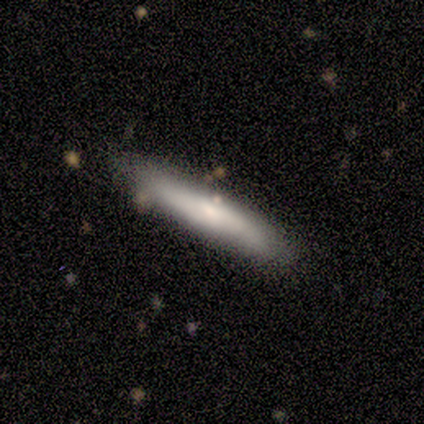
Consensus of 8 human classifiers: smooth_or_featured: smooth (p=0.62) [alt: featured or disk p=0.38]
how_rounded: cigar-shaped (p=0.80) [alt: in between p=0.20]
merging: none (p=0.88) [alt: minor disturbance p=0.12]